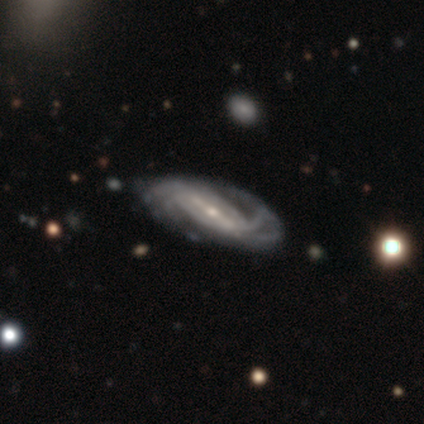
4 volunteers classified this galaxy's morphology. Q: Smooth or featured?
A: featured or disk (100%)
Q: Edge-on disk?
A: no (100%)
Q: Bar?
A: weak (75%); runner-up: strong (25%)
Q: Spiral arms?
A: yes (100%)
Q: Spiral winding?
A: medium (75%); runner-up: tight (25%)
Q: Spiral arm count?
A: can't tell (50%); runner-up: 2 (25%)
Q: Bulge size?
A: small (75%); runner-up: none (25%)
Q: Merging?
A: none (75%); runner-up: minor disturbance (25%)